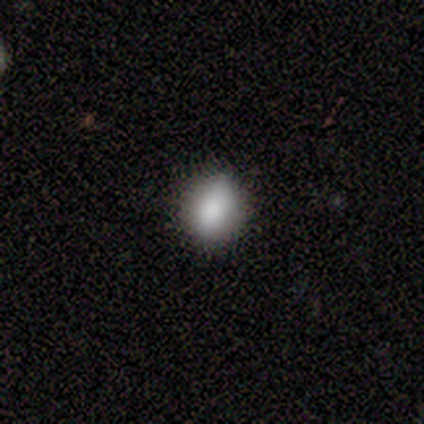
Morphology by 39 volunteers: Q: Smooth or featured?
A: smooth (85%); runner-up: star or artifact (10%)
Q: How rounded?
A: in between (58%); runner-up: round (39%)
Q: Merging?
A: none (69%); runner-up: minor disturbance (26%)